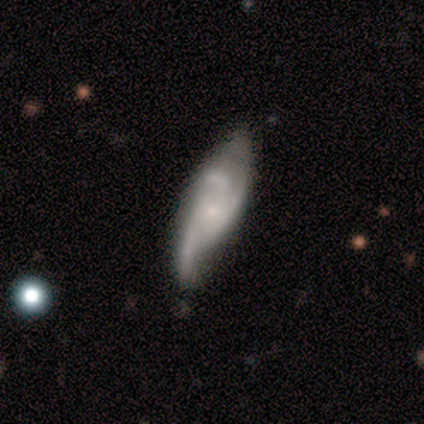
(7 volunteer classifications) Smooth or featured? 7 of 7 (100%) said featured or disk. Edge-on disk? 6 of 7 (86%) said no. Bar? 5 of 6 (83%) said no. Spiral arms? 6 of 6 (100%) said yes. Spiral winding? 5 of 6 (83%) said medium. Spiral arm count? 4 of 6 (67%) said 3. Bulge size? 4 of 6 (67%) said small. Merging? 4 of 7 (57%) said none.